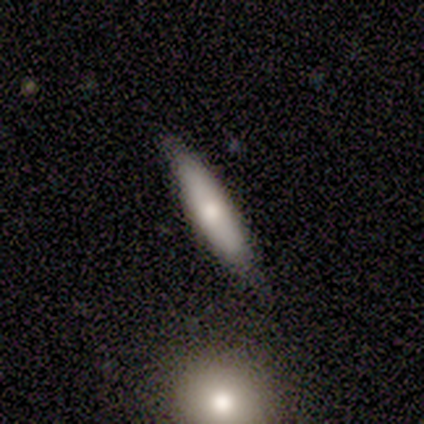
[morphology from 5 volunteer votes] This is clearly a smooth galaxy (100%). How rounded: clearly cigar-shaped (100%). Merging: clearly none (80%).